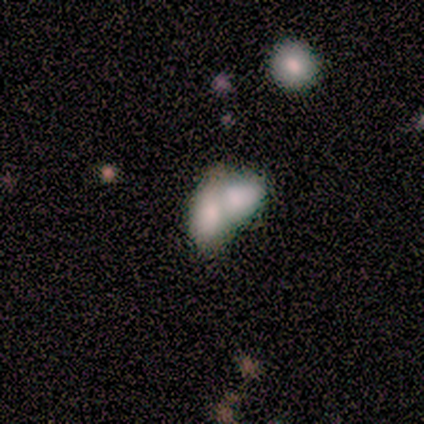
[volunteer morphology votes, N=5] Overall: smooth (80%). How rounded: in between (100%). Merging: merger (80%).